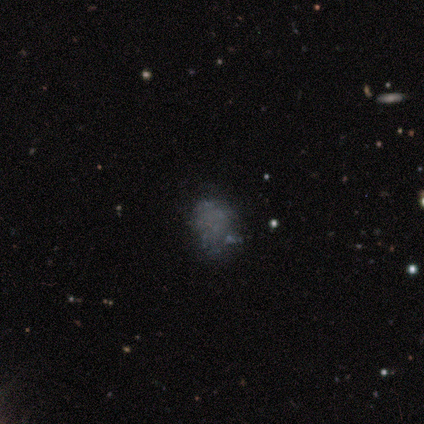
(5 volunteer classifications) Smooth or featured: smooth — 40% (tied with featured or disk — 40%)
How rounded: in between — 100%
Merging: none — 100%